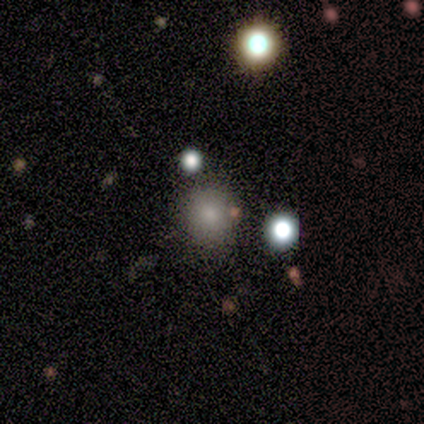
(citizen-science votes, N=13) A smooth galaxy with no disk features (69%) that is round (78%).

Vote fractions:
- Smooth or featured? smooth: 69% / star or artifact: 23% / featured or disk: 8%
- How rounded? round: 78% / in between: 22% / cigar-shaped: 0%
- Merging? none: 90% / merger: 10% / minor disturbance: 0% / major disturbance: 0%